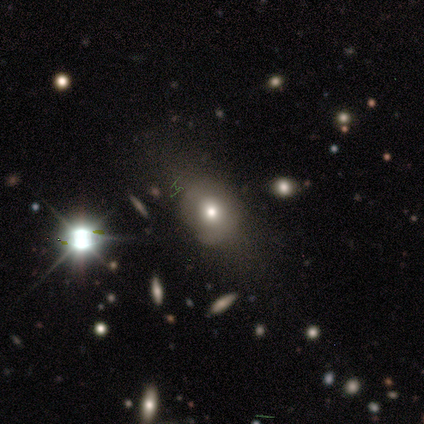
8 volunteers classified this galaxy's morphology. Smooth or featured? featured or disk (50%)
Edge-on disk? no (100%)
Bar? no (100%)
Spiral arms? no (100%)
Bulge size? moderate (75%)
Merging? none (83%)